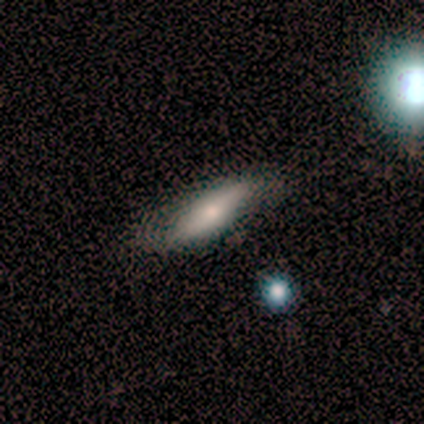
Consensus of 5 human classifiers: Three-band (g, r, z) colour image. It shows a featured or disk galaxy (60%) viewed edge-on (67%) with a rounded central bulge (100%). Merging: minor disturbance (60%).